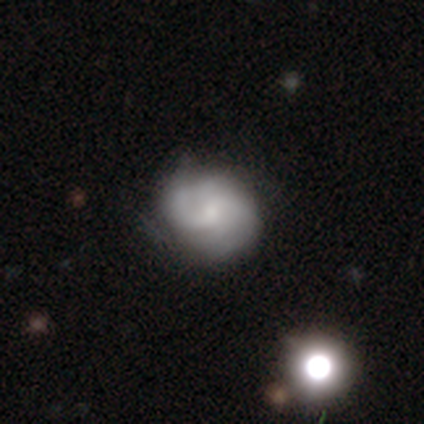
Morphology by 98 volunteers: smooth-or-featured: featured or disk: 67% | smooth: 23% | star or artifact: 9%
  disk-edge-on: no: 97% | yes: 3%
    bar: no: 64% | weak: 34% | strong: 2%
    has-spiral-arms: yes: 97% | no: 3%
      spiral-winding: medium: 39% | tight: 32% | loose: 29%
      spiral-arm-count: can't tell: 50% | 2: 26% | 4: 13% | 1: 6% | 3: 5% | more than 4: 0%
    bulge-size: small: 62% | moderate: 25% | none: 12% | dominant: 0% | large: 0%
  merging: none: 57% | minor disturbance: 36% | major disturbance: 3% | merger: 3%